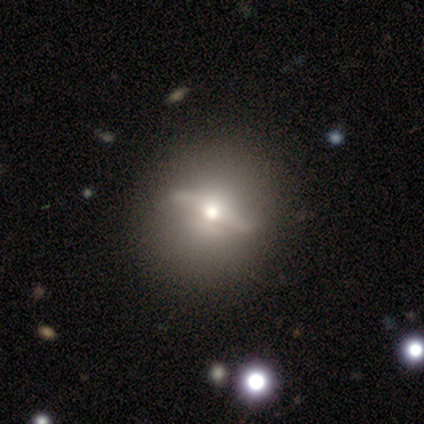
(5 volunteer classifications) featured or disk 60%, smooth 40%, star or artifact 0%. Down the decision tree: edge-on disk — yes (67%); edge-on bulge — rounded (100%); merging — none (60%).